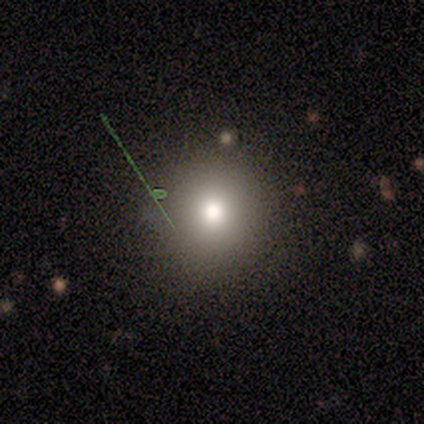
Smooth or featured? 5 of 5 (100%) said smooth. How rounded? 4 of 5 (80%) said round. Merging? 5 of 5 (100%) said none.